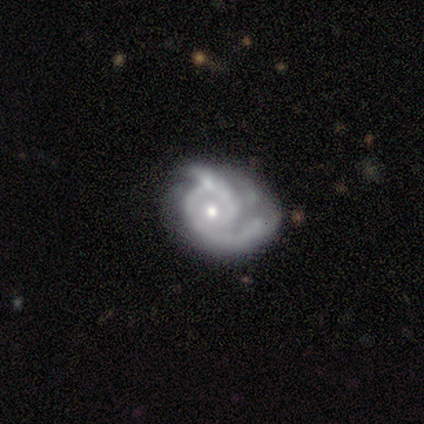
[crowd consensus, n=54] Volunteers were most divided on "merging": none: 36%, major disturbance: 34%, minor disturbance: 24%, merger: 6%. Remaining: edge-on disk — no (100%); spiral arms — yes (91%); smooth or featured — featured or disk (83%); bar — no (82%); bulge size — small (53%); spiral arm count — 2 (49%); spiral winding — tight (41%).